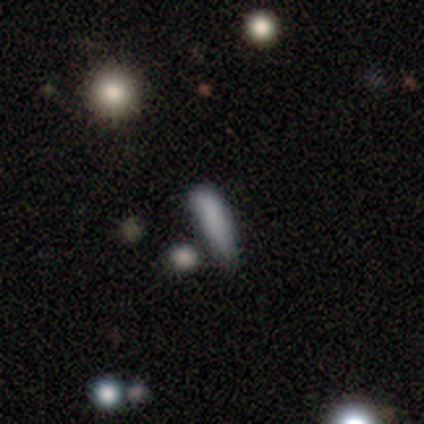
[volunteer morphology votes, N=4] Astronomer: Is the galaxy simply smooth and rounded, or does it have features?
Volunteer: smooth — 75%.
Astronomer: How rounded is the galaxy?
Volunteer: cigar-shaped — 67%.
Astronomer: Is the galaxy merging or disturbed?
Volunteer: minor disturbance — 67%.